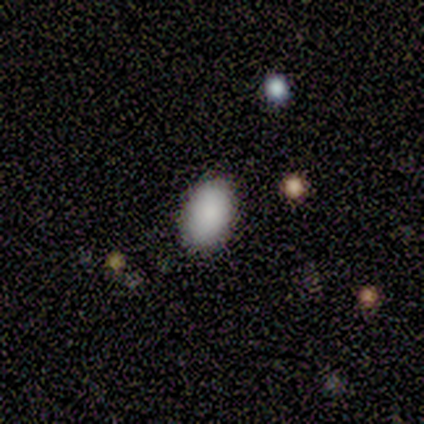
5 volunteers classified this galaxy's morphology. Overall: smooth (100%). How rounded: in between (100%). Merging: none (100%).